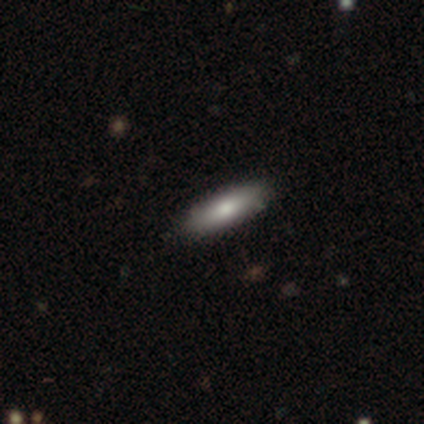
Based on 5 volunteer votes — This is likely a smooth galaxy (60%). How rounded: clearly cigar-shaped (100%). Merging: likely none (67%).